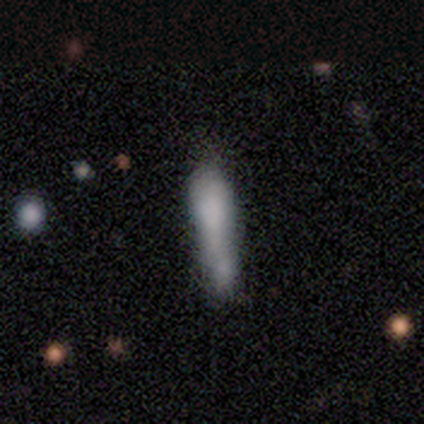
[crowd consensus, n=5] smooth 100%, featured or disk 0%, star or artifact 0%. Down the decision tree: how rounded — cigar-shaped (80%); merging — none (80%).